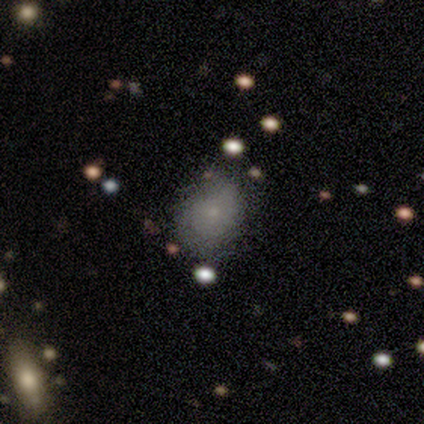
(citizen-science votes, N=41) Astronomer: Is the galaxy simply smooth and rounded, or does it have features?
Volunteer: smooth — 61%.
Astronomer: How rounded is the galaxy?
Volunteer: in between — 52% (runner-up: round, 48%).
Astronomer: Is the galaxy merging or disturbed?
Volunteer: none — 66%.